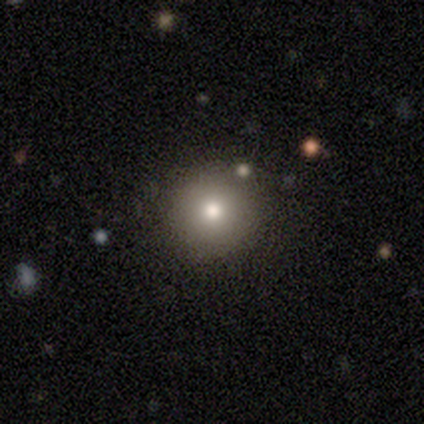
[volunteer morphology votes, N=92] This appears to be a smooth galaxy with no disk features (74%) that is round (91%). Merging: none (85%).